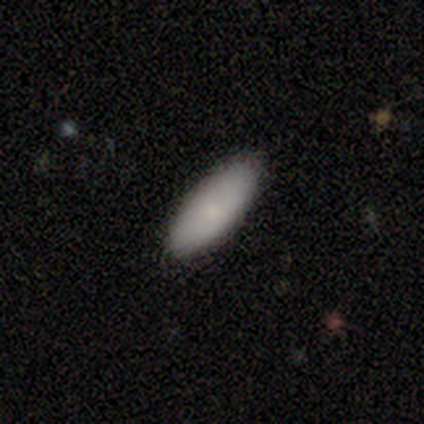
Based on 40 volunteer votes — Smooth or featured?
  - smooth: 85% *
  - star or artifact: 10%
  - featured or disk: 5%
How rounded?
  - in between: 71% *
  - cigar-shaped: 29%
  - round: 0%
Merging?
  - none: 89% *
  - minor disturbance: 11%
  - major disturbance: 0%
  - merger: 0%